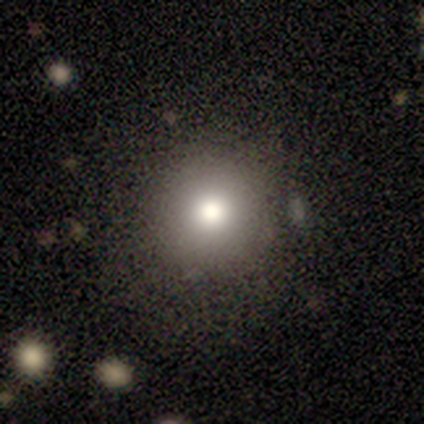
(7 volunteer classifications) Smooth or featured? 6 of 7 (86%) said smooth. How rounded? 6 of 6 (100%) said round. Merging? 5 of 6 (83%) said none.